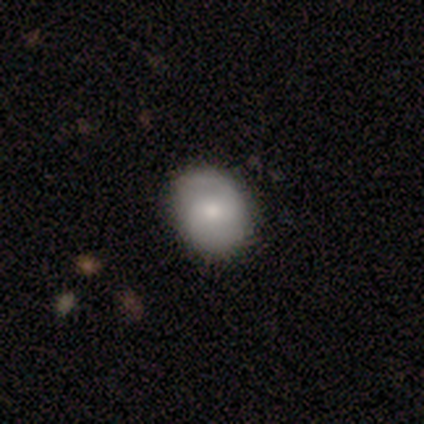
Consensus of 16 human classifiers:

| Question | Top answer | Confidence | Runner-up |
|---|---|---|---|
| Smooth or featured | smooth | 56% | featured or disk (38%) |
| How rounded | in between | 67% | round (33%) |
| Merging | none | 80% | minor disturbance (13%) |